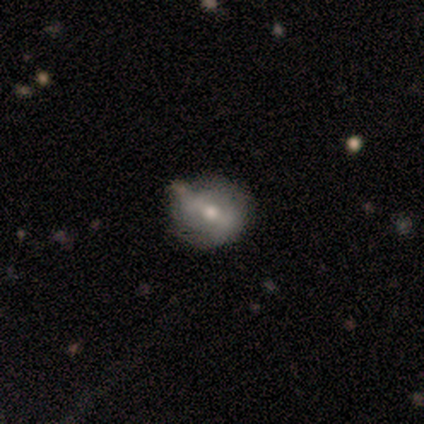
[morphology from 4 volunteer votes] Smooth or featured: featured or disk — 50% (smooth — 25%)
Edge-on disk: no — 100%
Bar: weak — 100%
Spiral arms: yes — 50% (tied with no — 50%)
Spiral winding: tight — 100%
Spiral arm count: 2 — 100%
Bulge size: moderate — 50% (tied with small — 50%)
Merging: none — 100%